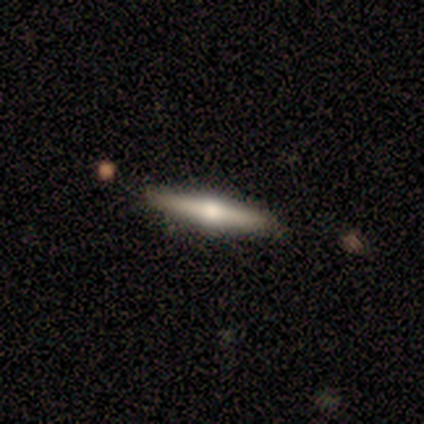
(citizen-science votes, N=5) A featured or disk galaxy (80%) viewed edge-on (100%) with a rounded central bulge (100%).

Vote fractions:
- Smooth or featured? featured or disk: 80% / smooth: 20% / star or artifact: 0%
- Edge-on disk? yes: 100% / no: 0%
- Edge-on bulge? rounded: 100% / boxy: 0% / none: 0%
- Merging? none: 100% / minor disturbance: 0% / major disturbance: 0% / merger: 0%